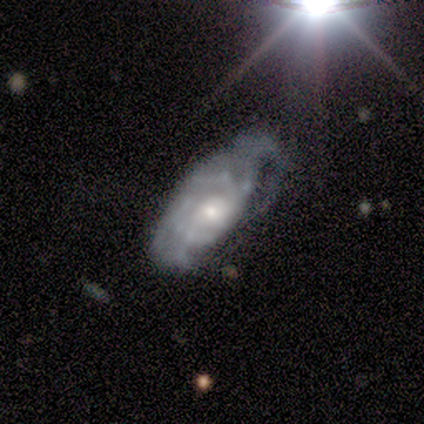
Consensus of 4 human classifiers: Smooth or featured? 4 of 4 (100%) said featured or disk. Edge-on disk? 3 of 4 (75%) said no. Bar? 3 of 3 (100%) said no. Spiral arms? 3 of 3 (100%) said yes. Spiral winding? 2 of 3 (67%) said tight. Spiral arm count? 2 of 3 (67%) said can't tell. Bulge size? 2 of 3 (67%) said moderate. Merging? 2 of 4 (50%, tied with major disturbance) said minor disturbance.